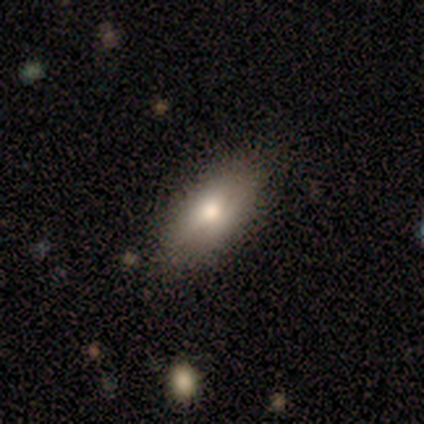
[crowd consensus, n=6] This appears to be a smooth galaxy with no disk features (50%) that is in between round and cigar-shaped (100%). Merging: none (80%).